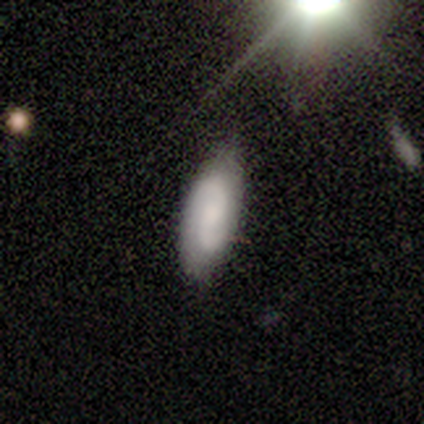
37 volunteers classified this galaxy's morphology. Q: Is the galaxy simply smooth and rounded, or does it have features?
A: featured or disk — 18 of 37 (49%).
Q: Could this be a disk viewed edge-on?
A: no — 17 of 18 (94%).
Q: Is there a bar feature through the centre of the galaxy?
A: no — 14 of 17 (82%).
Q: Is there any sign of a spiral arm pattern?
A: yes — 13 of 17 (76%).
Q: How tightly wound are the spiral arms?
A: medium — 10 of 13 (77%).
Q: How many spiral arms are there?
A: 2 — 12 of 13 (92%).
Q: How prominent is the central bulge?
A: moderate — 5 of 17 (29%, tied with small and none).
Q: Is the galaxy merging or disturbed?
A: none — 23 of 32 (72%).